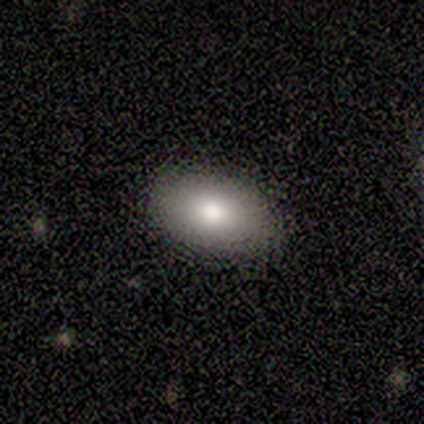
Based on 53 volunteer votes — Q: Smooth or featured?
A: smooth (79%); runner-up: featured or disk (11%)
Q: How rounded?
A: in between (93%); runner-up: round (7%)
Q: Merging?
A: none (92%); runner-up: minor disturbance (6%)